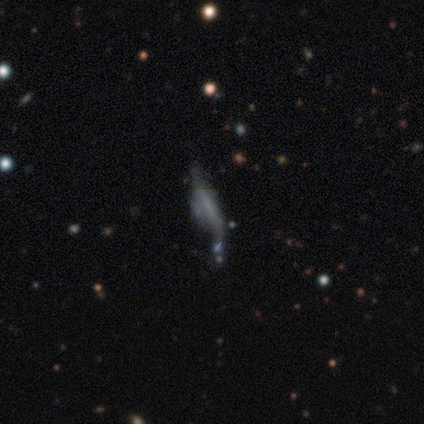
smooth-or-featured: featured or disk: 75% | smooth: 25% | star or artifact: 0%
  disk-edge-on: yes: 67% | no: 33%
    edge-on-bulge: boxy: 50% (tied) | none: 50% (tied) | rounded: 0%
  merging: major disturbance: 50% | none: 25% | merger: 25% | minor disturbance: 0%